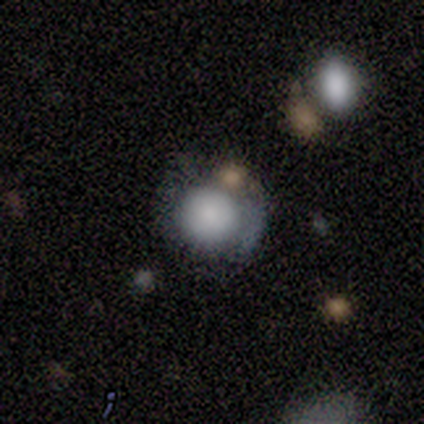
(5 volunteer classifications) Morphology: type=smooth (60%); roundness=round (67%); merging=merger (50%).